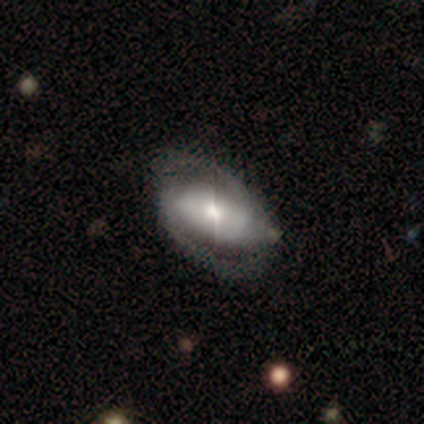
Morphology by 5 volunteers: smooth-or-featured: featured or disk: 80% | smooth: 20% | star or artifact: 0%
  disk-edge-on: no: 100% | yes: 0%
    bar: strong: 50% (tied) | no: 50% (tied) | weak: 0%
    has-spiral-arms: yes: 100% | no: 0%
      spiral-winding: loose: 50% | tight: 25% | medium: 25%
      spiral-arm-count: 2: 100% | 1: 0% | 3: 0% | 4: 0% | more than 4: 0% | can't tell: 0%
    bulge-size: moderate: 100% | dominant: 0% | large: 0% | small: 0% | none: 0%
  merging: none: 40% (tied) | major disturbance: 40% (tied) | merger: 20% | minor disturbance: 0%